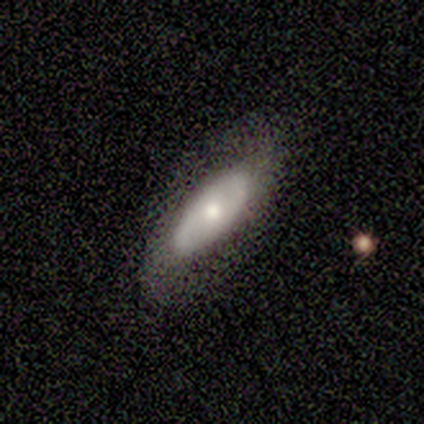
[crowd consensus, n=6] A smooth galaxy with no disk features (67%) that is in between round and cigar-shaped (75%). Merging: none (80%).